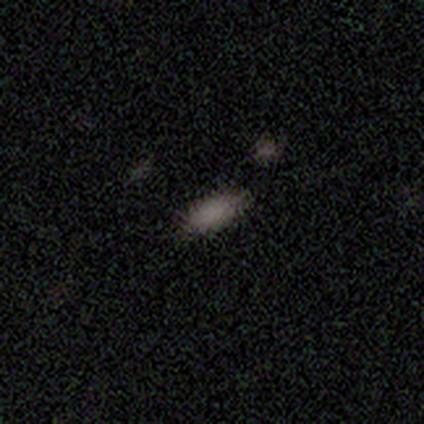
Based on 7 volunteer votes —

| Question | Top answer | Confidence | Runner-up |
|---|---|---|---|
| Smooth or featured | smooth | 100% | — |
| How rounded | in between | 71% | cigar-shaped (29%) |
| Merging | none | 57% | minor disturbance (29%) |